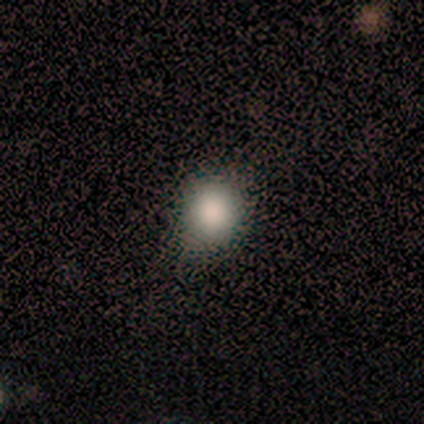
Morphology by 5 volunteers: Smooth or featured?
  - smooth: 100% *
  - featured or disk: 0%
  - star or artifact: 0%
How rounded?
  - round: 80% *
  - in between: 20%
  - cigar-shaped: 0%
Merging?
  - none: 100% *
  - minor disturbance: 0%
  - major disturbance: 0%
  - merger: 0%